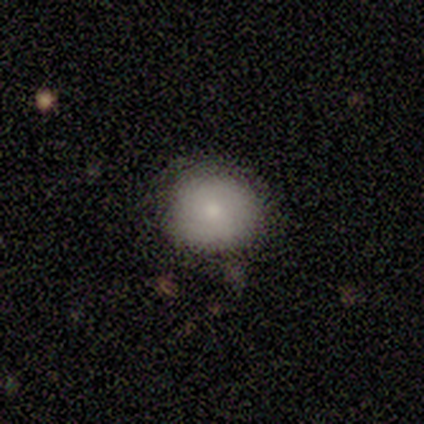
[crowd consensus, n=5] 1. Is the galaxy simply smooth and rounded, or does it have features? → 100% smooth, 0% featured or disk, 0% star or artifact.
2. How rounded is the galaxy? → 100% round, 0% in between, 0% cigar-shaped.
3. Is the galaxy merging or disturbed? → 60% minor disturbance, 40% none, 0% major disturbance, 0% merger.